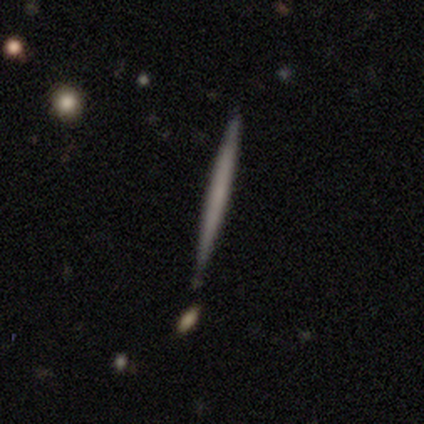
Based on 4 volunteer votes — Smooth or featured: smooth — 50% (tied with featured or disk — 50%)
How rounded: cigar-shaped — 100%
Merging: none — 100%